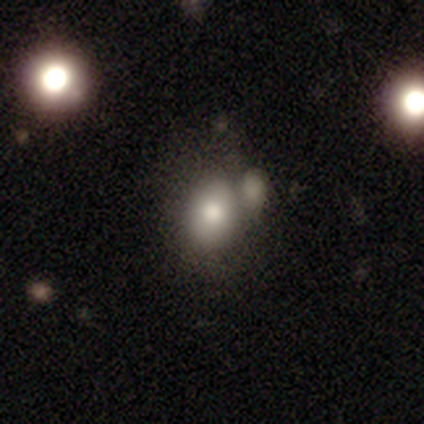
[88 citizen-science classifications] Volunteers were most divided on "merging": none: 38%, merger: 32%, minor disturbance: 22%, major disturbance: 7%. More confident: smooth or featured — smooth (83%); how rounded — in between (56%).